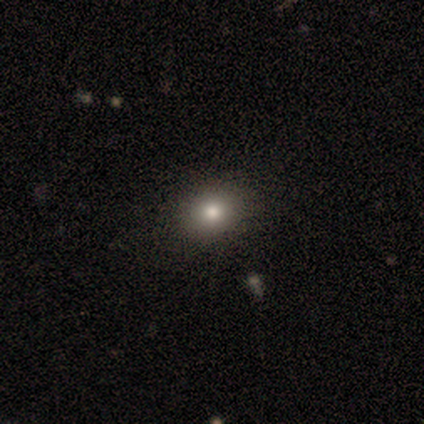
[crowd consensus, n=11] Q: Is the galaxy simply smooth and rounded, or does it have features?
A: smooth — 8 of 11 (73%).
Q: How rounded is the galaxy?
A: round — 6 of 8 (75%).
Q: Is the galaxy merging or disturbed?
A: none — 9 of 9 (100%).